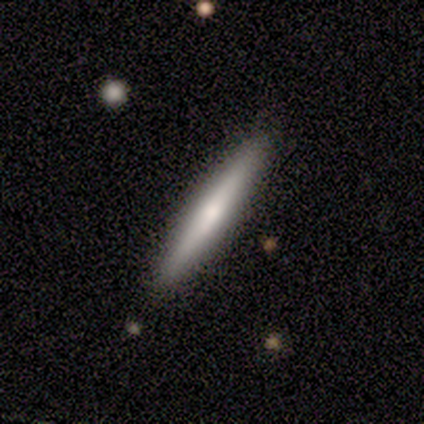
A smooth galaxy with no disk features (80%) that is cigar-shaped (100%).

Vote fractions:
- Smooth or featured? smooth: 80% / featured or disk: 20% / star or artifact: 0%
- How rounded? cigar-shaped: 100% / round: 0% / in between: 0%
- Merging? none: 100% / minor disturbance: 0% / major disturbance: 0% / merger: 0%